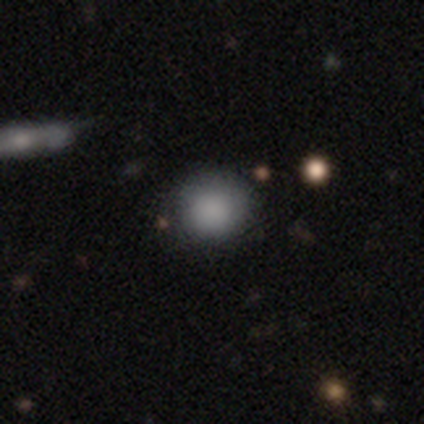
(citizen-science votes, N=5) smooth_or_featured: smooth (p=1.00)
how_rounded: round (p=0.60) [alt: in between p=0.40]
merging: none (p=0.80) [alt: merger p=0.20]